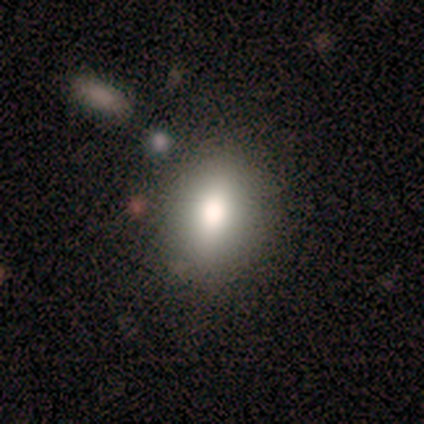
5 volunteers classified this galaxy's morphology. smooth 60%, featured or disk 20%, star or artifact 20%. Down the decision tree: how rounded — in between (67%); merging — none (100%).